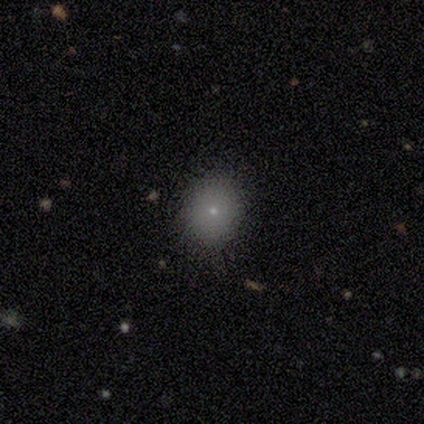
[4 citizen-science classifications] Overall: smooth (75%). How rounded: round (100%). Merging: none (100%).